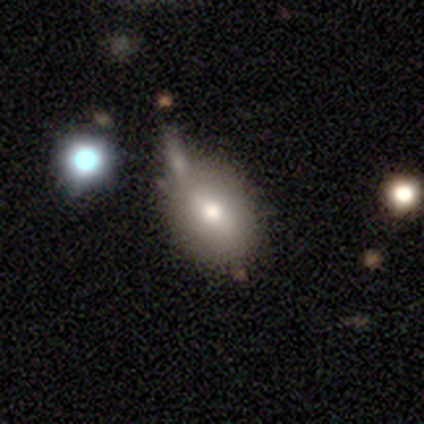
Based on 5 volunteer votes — Volunteers were most divided on "smooth or featured": smooth: 60%, featured or disk: 20%, star or artifact: 20%. More confident: how rounded — in between (100%); merging — none (75%).